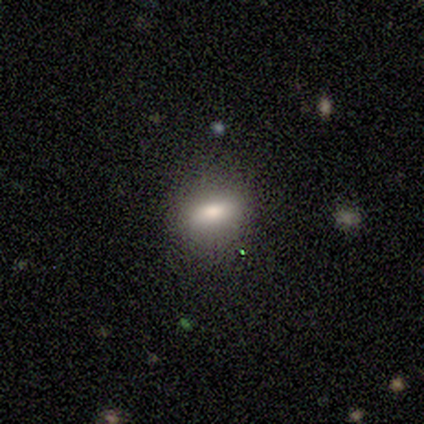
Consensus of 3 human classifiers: Smooth or featured?
  - smooth: 67% *
  - featured or disk: 33%
  - star or artifact: 0%
How rounded?
  - in between: 100% *
  - round: 0%
  - cigar-shaped: 0%
Merging?
  - none: 100% *
  - minor disturbance: 0%
  - major disturbance: 0%
  - merger: 0%